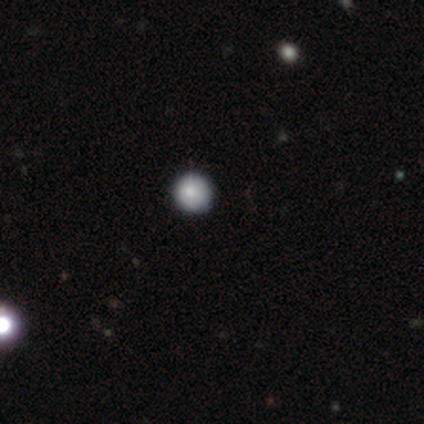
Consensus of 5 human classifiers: smooth_or_featured: smooth (p=1.00)
how_rounded: round (p=1.00)
merging: none (p=0.80) [alt: minor disturbance p=0.20]